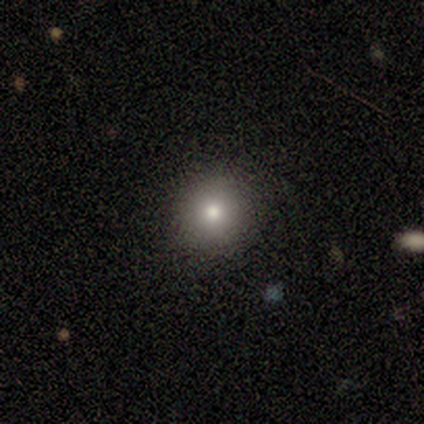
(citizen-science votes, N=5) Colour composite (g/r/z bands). It shows a smooth galaxy with no disk features (100%) that is round (100%). Merging: none (100%).